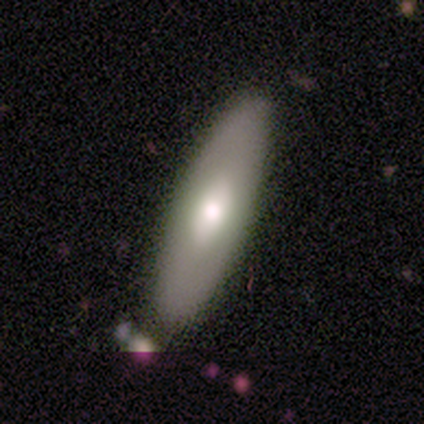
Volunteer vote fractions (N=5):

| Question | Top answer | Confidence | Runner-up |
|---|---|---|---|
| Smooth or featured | smooth | 60% | featured or disk (40%) |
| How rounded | cigar-shaped | 67% | in between (33%) |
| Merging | none | 80% | minor disturbance (20%) |